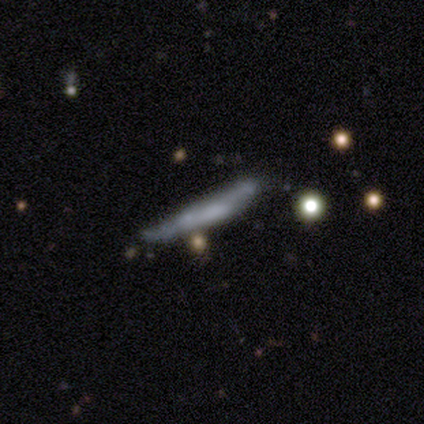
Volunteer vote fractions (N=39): Overall: featured or disk (54%; smooth 36%). Edge-on disk: yes (62%; no 38%). Edge-on bulge: none (85%). Merging: none (49%; minor disturbance 20%).